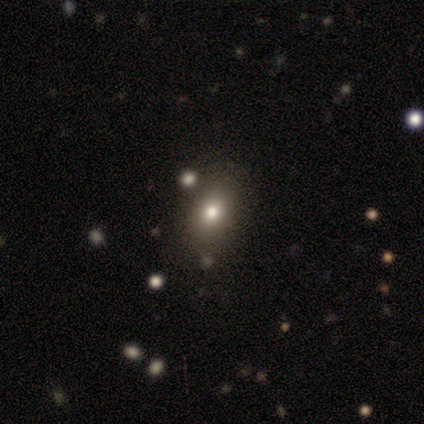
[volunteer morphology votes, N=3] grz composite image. It shows a smooth galaxy with no disk features (100%) that is in between round and cigar-shaped (67%). Merging: none (67%).